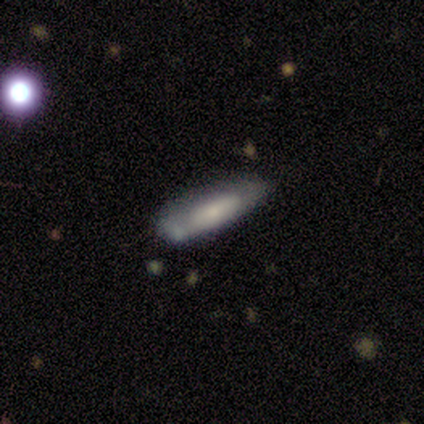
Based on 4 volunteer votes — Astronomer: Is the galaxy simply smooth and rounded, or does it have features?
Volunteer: smooth — 100%.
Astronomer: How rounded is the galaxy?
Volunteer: cigar-shaped — 100%.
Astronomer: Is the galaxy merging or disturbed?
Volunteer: none — 75%.